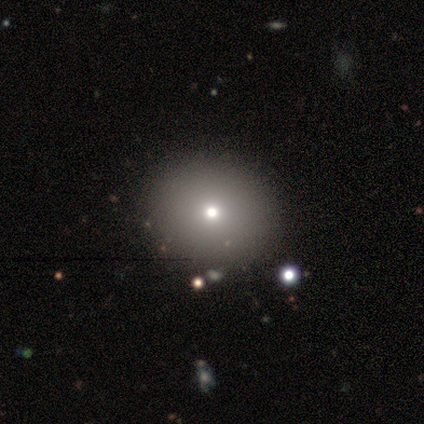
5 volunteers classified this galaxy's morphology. Smooth or featured? 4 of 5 (80%) said smooth. How rounded? 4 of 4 (100%) said round. Merging? 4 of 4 (100%) said none.